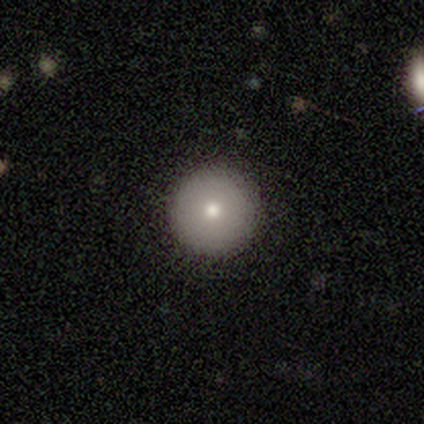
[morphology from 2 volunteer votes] A smooth galaxy with no disk features (100%) that is round (100%).

Vote fractions:
- Smooth or featured? smooth: 100% / featured or disk: 0% / star or artifact: 0%
- How rounded? round: 100% / in between: 0% / cigar-shaped: 0%
- Merging? none: 50% (tied) / merger: 50% (tied) / minor disturbance: 0% / major disturbance: 0%